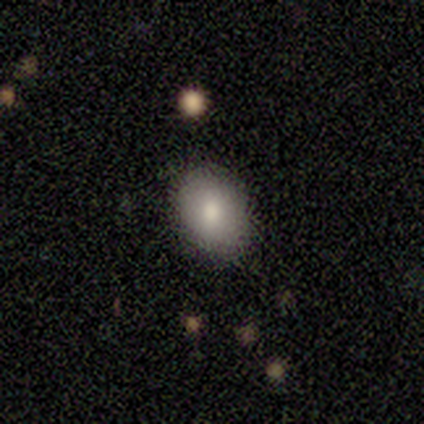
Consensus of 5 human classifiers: Volunteers were most divided on "how rounded": round: 75%, in between: 25%, cigar-shaped: 0%. More confident: smooth or featured — smooth (80%); merging — none (75%).